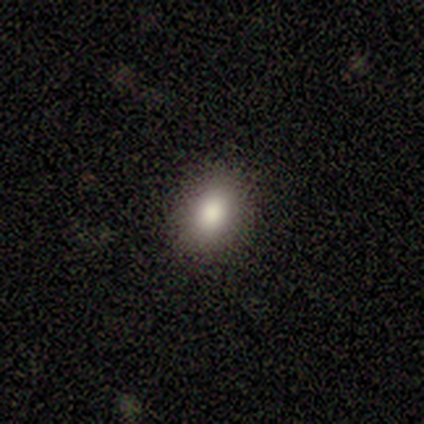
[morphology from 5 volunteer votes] smooth-or-featured: smooth: 80% | featured or disk: 20% | star or artifact: 0%
  how-rounded: in between: 75% | round: 25% | cigar-shaped: 0%
  merging: none: 100% | minor disturbance: 0% | major disturbance: 0% | merger: 0%